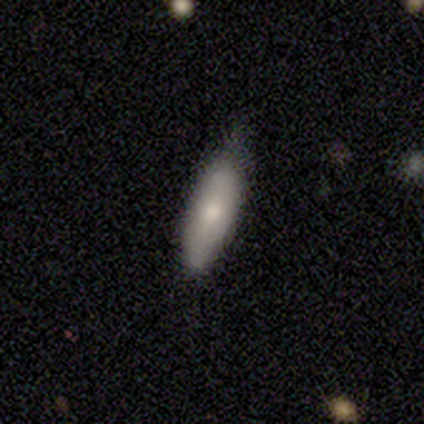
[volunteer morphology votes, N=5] smooth 60%, featured or disk 40%, star or artifact 0%. Down the decision tree: how rounded — in between (67%); merging — none (60%).